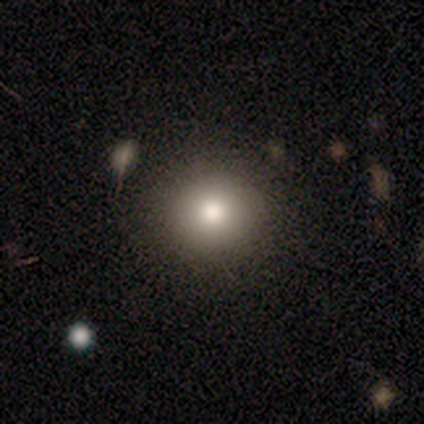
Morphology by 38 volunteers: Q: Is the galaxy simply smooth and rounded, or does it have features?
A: smooth — 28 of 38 (74%).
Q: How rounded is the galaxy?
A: round — 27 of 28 (96%).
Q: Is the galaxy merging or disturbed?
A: none — 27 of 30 (90%).